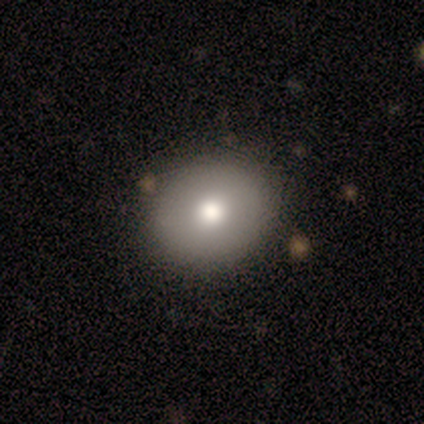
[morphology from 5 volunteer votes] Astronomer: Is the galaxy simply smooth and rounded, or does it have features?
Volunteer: smooth — 80%.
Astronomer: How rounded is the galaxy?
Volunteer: round — 75%.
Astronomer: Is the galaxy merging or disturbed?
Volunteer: none — 100%.